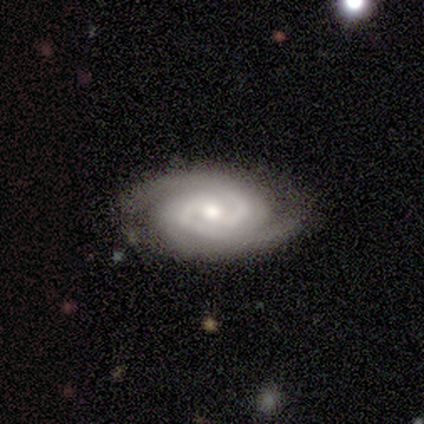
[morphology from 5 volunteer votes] Volunteers were most divided on "spiral winding": tight: 75%, medium: 25%, loose: 0%. More confident: smooth or featured — featured or disk (100%); bar — no (100%); spiral arms — yes (100%); spiral arm count — 2 (100%); edge-on disk — no (80%); merging — none (80%); bulge size — small (75%).